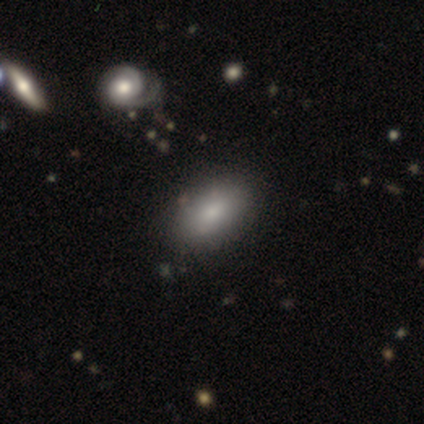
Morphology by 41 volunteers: This appears to be a smooth galaxy with no disk features (83%) that is in between round and cigar-shaped (88%). Merging: none (82%).